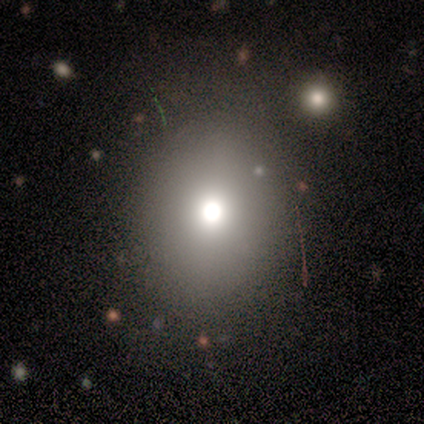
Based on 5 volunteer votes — Smooth or featured: smooth — 40% (tied with featured or disk — 40%)
How rounded: in between — 100%
Merging: none — 50% (major disturbance — 25%)